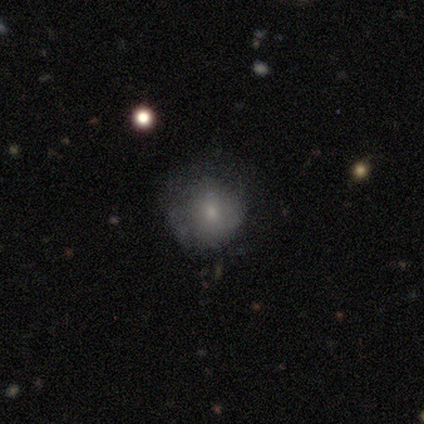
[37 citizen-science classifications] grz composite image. It shows a smooth galaxy with no disk features (68%) that is round (76%). Merging: none (56%).